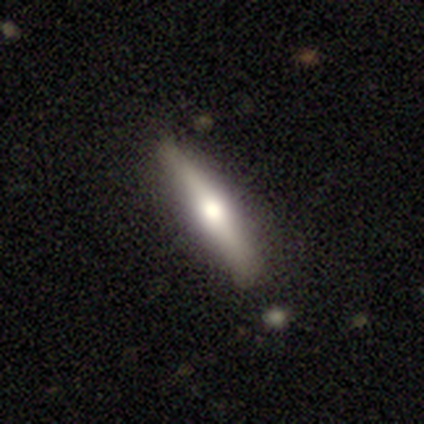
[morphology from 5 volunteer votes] This appears to be a featured or disk galaxy (100%) viewed edge-on (100%) with a rounded central bulge (100%). Merging: none (60%).